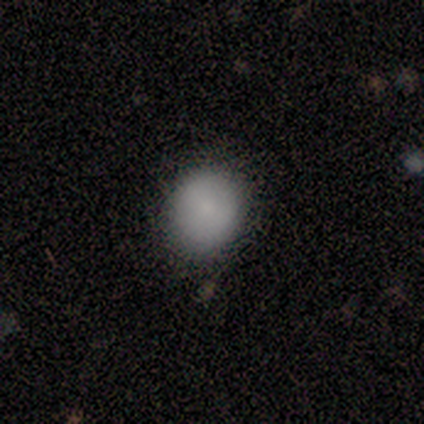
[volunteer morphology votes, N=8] A smooth galaxy with no disk features (100%) that is round (75%).

Vote fractions:
- Smooth or featured? smooth: 100% / featured or disk: 0% / star or artifact: 0%
- How rounded? round: 75% / in between: 25% / cigar-shaped: 0%
- Merging? none: 75% / minor disturbance: 25% / major disturbance: 0% / merger: 0%